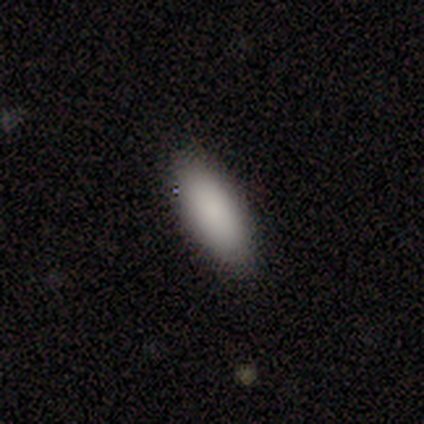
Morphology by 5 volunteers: Q: Smooth or featured?
A: smooth (100%)
Q: How rounded?
A: in between (60%); runner-up: cigar-shaped (40%)
Q: Merging?
A: none (100%)